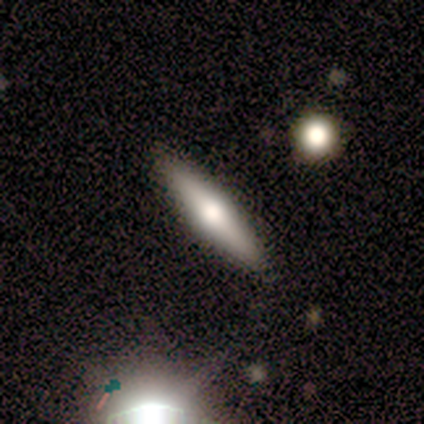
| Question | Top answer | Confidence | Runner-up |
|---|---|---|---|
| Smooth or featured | smooth | 40% | tied: featured or disk (40%) |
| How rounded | cigar-shaped | 100% | — |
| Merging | none | 100% | — |